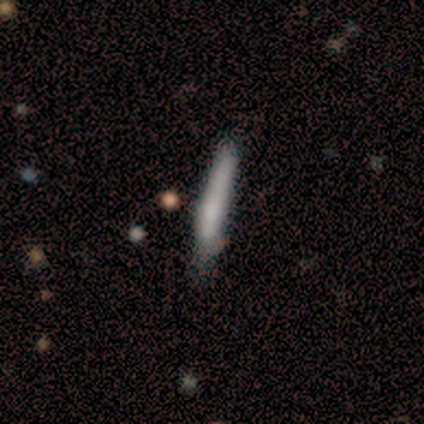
smooth_or_featured: smooth (p=0.75) [alt: featured or disk p=0.25]
how_rounded: cigar-shaped (p=1.00)
merging: none (p=0.75) [alt: minor disturbance p=0.25]